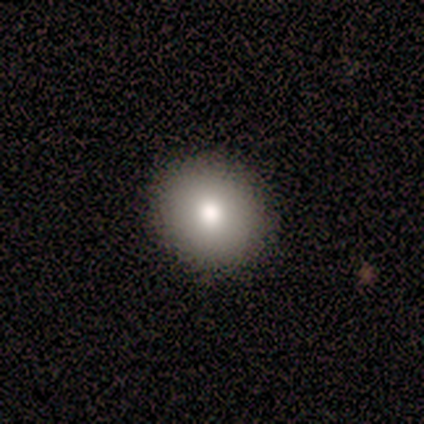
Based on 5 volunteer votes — Smooth or featured? 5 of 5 (100%) said smooth. How rounded? 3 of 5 (60%) said round. Merging? 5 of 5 (100%) said none.